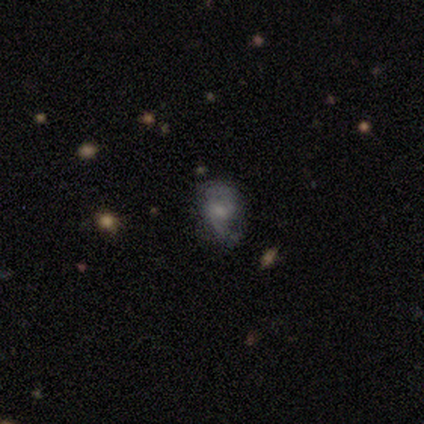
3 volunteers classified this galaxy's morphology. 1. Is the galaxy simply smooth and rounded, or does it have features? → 33% smooth (tied), 33% featured or disk (tied), 33% star or artifact (tied).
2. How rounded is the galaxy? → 100% in between, 0% round, 0% cigar-shaped.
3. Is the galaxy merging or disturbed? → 50% none (tied), 50% major disturbance (tied), 0% minor disturbance, 0% merger.